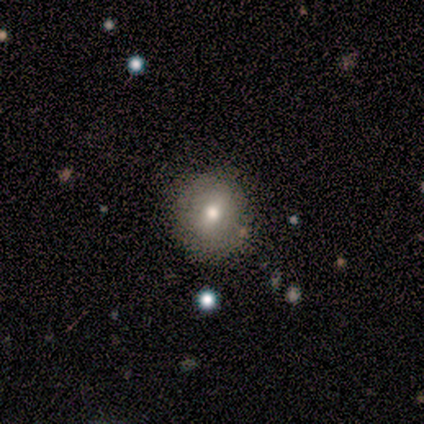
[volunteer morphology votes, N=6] Smooth or featured? smooth (100%)
How rounded? round (100%)
Merging? none (83%)